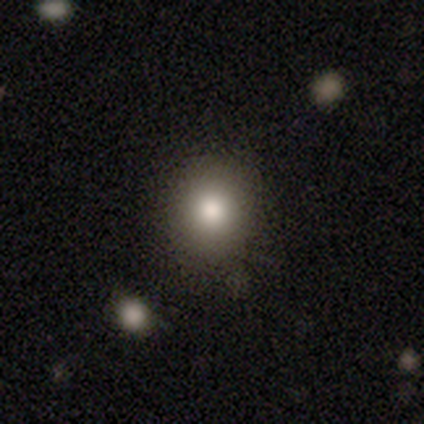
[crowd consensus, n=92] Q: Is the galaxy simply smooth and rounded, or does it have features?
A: smooth — 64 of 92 (70%).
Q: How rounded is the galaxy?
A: round — 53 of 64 (83%).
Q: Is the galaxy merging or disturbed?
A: none — 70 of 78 (90%).